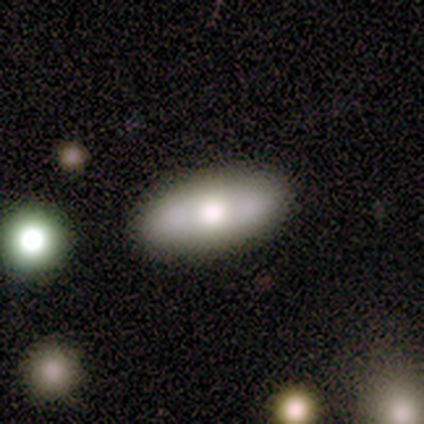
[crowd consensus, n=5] This appears to be a smooth galaxy with no disk features (100%) that is in between round and cigar-shaped (100%). Merging: none (100%).